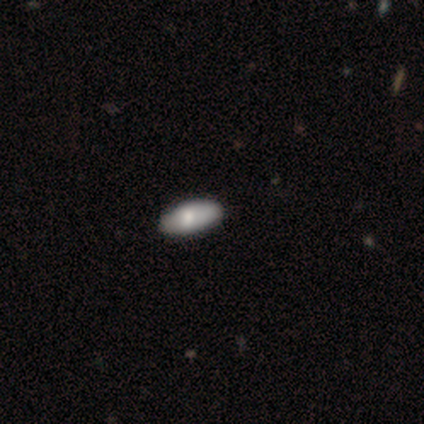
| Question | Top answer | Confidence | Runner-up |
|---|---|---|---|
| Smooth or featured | smooth | 67% | featured or disk (33%) |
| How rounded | in between | 100% | — |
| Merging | none | 100% | — |